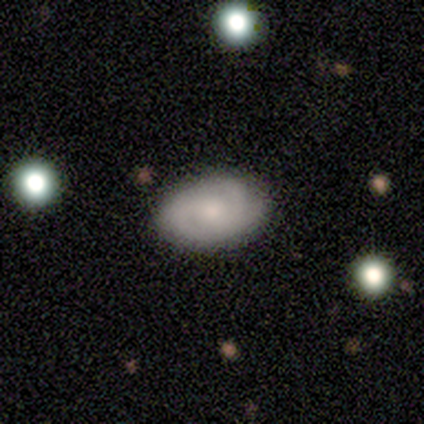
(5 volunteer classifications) Overall: smooth (60%; featured or disk 20%). How rounded: in between (100%). Merging: none (100%).